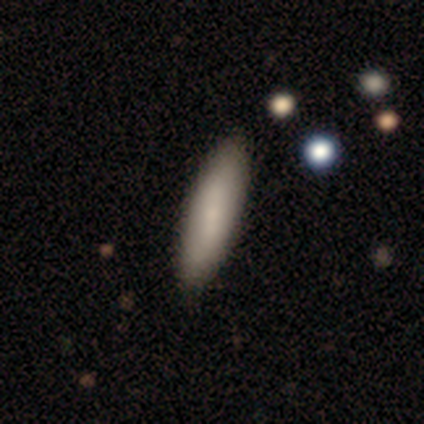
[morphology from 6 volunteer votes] Q: Smooth or featured?
A: smooth (100%)
Q: How rounded?
A: in between (50%); tied with: cigar-shaped (50%)
Q: Merging?
A: none (100%)